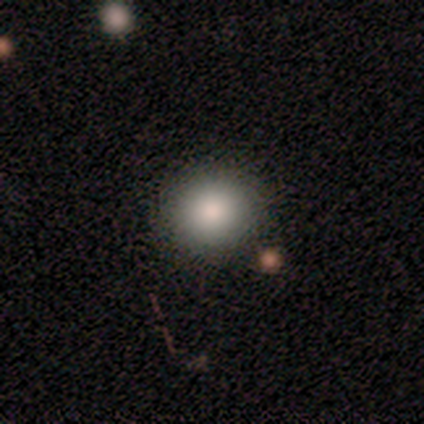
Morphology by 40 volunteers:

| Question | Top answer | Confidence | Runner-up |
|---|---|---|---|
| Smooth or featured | smooth | 90% | featured or disk (5%) |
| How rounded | round | 83% | in between (14%) |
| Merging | none | 87% | minor disturbance (8%) |